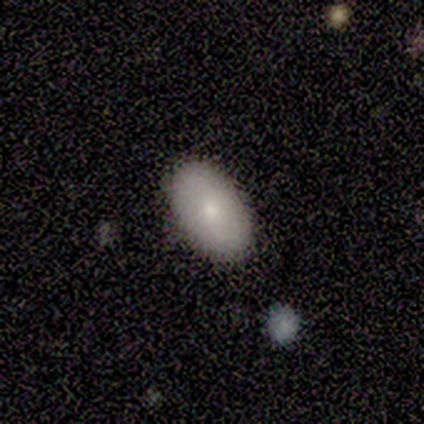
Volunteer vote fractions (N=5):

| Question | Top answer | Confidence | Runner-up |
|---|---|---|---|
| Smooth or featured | smooth | 80% | featured or disk (20%) |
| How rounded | in between | 100% | — |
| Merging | none | 80% | minor disturbance (20%) |